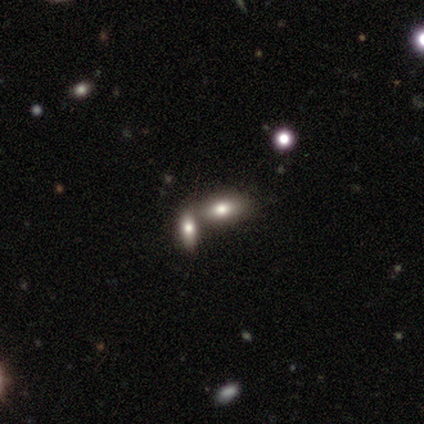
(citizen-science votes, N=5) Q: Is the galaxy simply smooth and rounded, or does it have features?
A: smooth — 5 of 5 (100%).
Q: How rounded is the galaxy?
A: in between — 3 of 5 (60%).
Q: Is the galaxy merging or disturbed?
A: merger — 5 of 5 (100%).